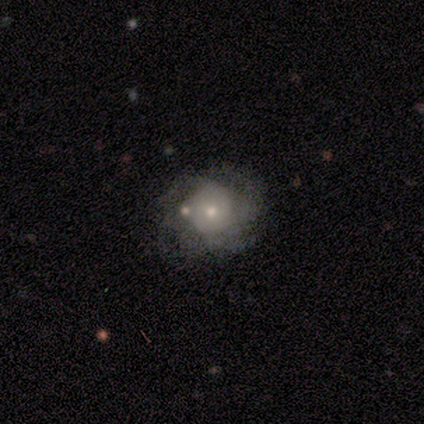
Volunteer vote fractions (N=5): A featured or disk galaxy (80%) with no bar (100%), 3 (67%) tight (67%) spiral arms (75%) and a moderate central bulge (50%, tied with small).

Vote fractions:
- Smooth or featured? featured or disk: 80% / smooth: 20% / star or artifact: 0%
- Edge-on disk? no: 100% / yes: 0%
- Bar? no: 100% / strong: 0% / weak: 0%
- Spiral arms? yes: 75% / no: 25%
- Spiral winding? tight: 67% / medium: 33% / loose: 0%
- Spiral arm count? 3: 67% / 2: 33% / 1: 0% / 4: 0% / more than 4: 0% / can't tell: 0%
- Bulge size? moderate: 50% (tied) / small: 50% (tied) / dominant: 0% / large: 0% / none: 0%
- Merging? none: 40% (tied) / minor disturbance: 40% (tied) / major disturbance: 20% / merger: 0%